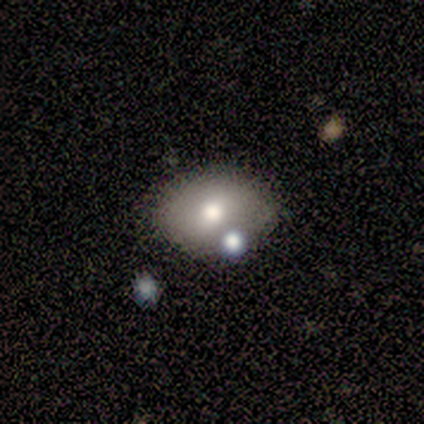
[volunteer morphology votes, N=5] Smooth or featured?
  - smooth: 60% *
  - featured or disk: 40%
  - star or artifact: 0%
How rounded?
  - round: 100% *
  - in between: 0%
  - cigar-shaped: 0%
Merging?
  - none: 80% *
  - minor disturbance: 20%
  - major disturbance: 0%
  - merger: 0%